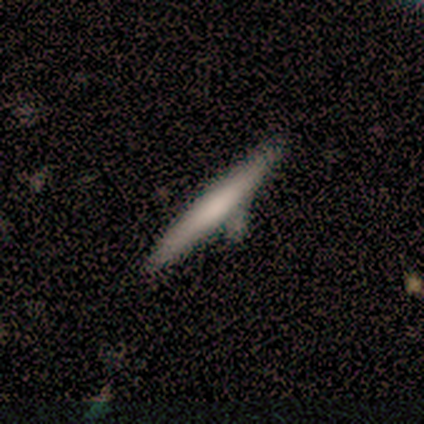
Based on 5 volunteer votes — Smooth or featured?
  - featured or disk: 60% *
  - smooth: 40%
  - star or artifact: 0%
Edge-on disk?
  - yes: 100% *
  - no: 0%
Edge-on bulge?
  - none: 67% *
  - boxy: 33%
  - rounded: 0%
Merging?
  - none: 80% *
  - minor disturbance: 20%
  - major disturbance: 0%
  - merger: 0%